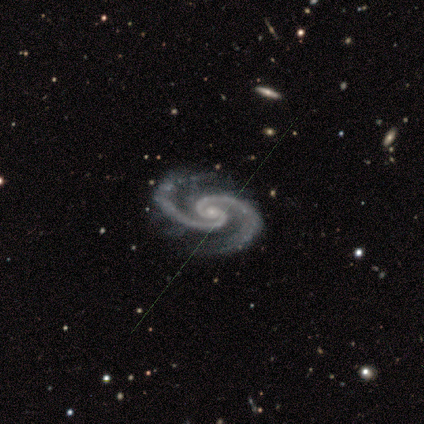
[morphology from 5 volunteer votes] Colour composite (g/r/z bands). It shows a featured or disk galaxy (100%) with no bar (80%), 2 (100%) medium (80%) spiral arms (100%) and a small central bulge (80%). Merging: none (100%).